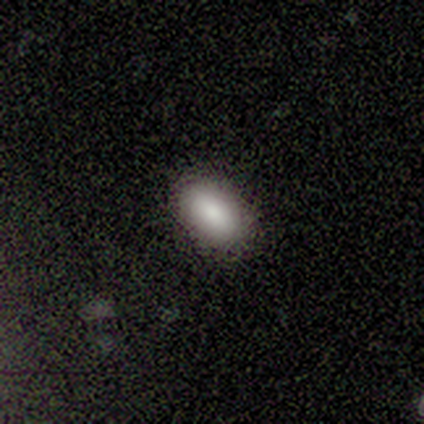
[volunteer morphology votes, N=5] Smooth or featured? smooth (80%)
How rounded? in between (75%)
Merging? none (75%)